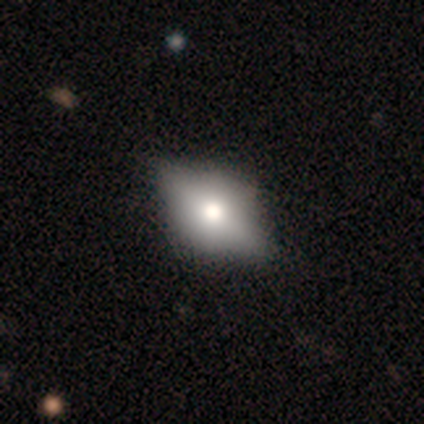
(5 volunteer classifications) Overall: featured or disk (60%; smooth 40%). Edge-on disk: yes (67%; no 33%). Edge-on bulge: rounded (100%). Merging: none (80%).